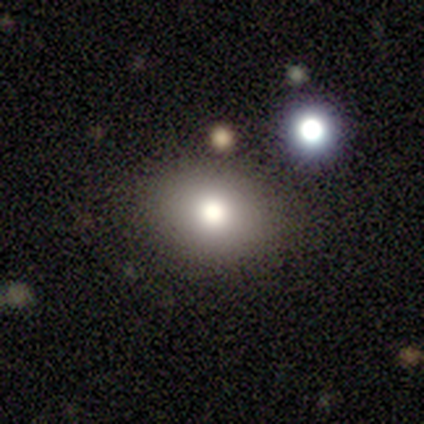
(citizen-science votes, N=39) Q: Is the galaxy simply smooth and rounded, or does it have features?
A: smooth — 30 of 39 (77%).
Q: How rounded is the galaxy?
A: in between — 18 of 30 (60%).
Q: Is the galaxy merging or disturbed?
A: none — 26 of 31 (84%).